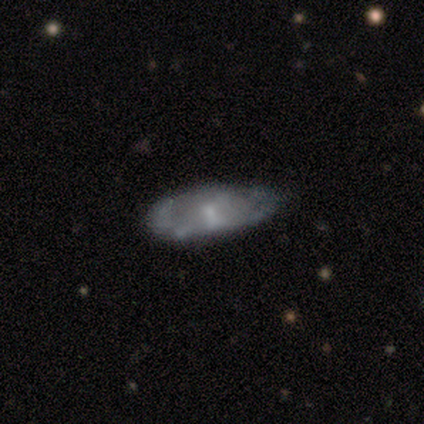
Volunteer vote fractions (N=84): Smooth or featured? smooth (52%)
How rounded? in between (70%)
Merging? minor disturbance (51%)